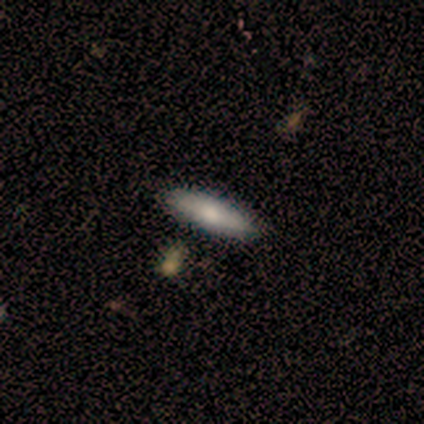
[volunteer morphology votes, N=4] type=smooth (100%); roundness=in between (50%, tied with cigar-shaped); merging=none (75%).